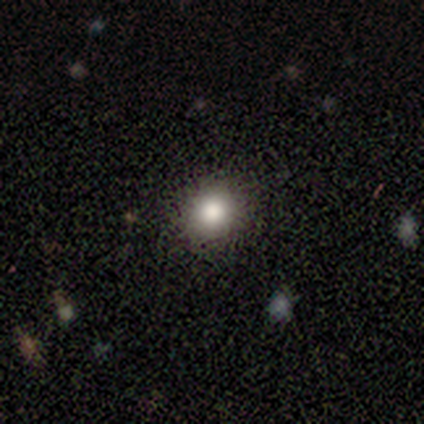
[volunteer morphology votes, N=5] smooth-or-featured: smooth: 80% | star or artifact: 20% | featured or disk: 0%
  how-rounded: round: 100% | in between: 0% | cigar-shaped: 0%
  merging: none: 100% | minor disturbance: 0% | major disturbance: 0% | merger: 0%